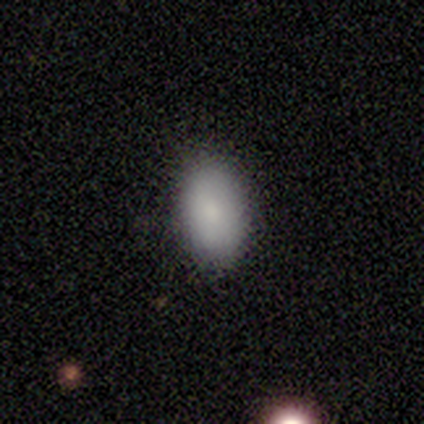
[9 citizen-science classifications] smooth_or_featured: smooth (p=0.89) [alt: star or artifact p=0.11]
how_rounded: in between (p=1.00)
merging: none (p=1.00)